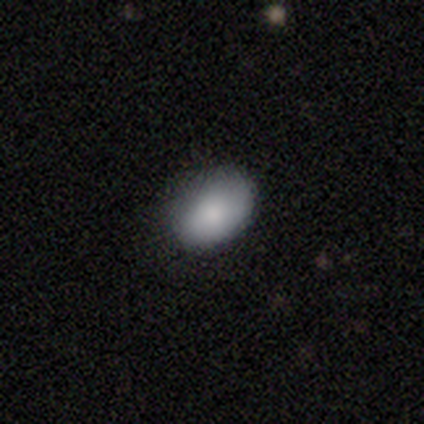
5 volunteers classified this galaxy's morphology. smooth_or_featured: smooth (p=0.80) [alt: featured or disk p=0.20]
how_rounded: in between (p=0.75) [alt: round p=0.25]
merging: none (p=0.80) [alt: minor disturbance p=0.20]